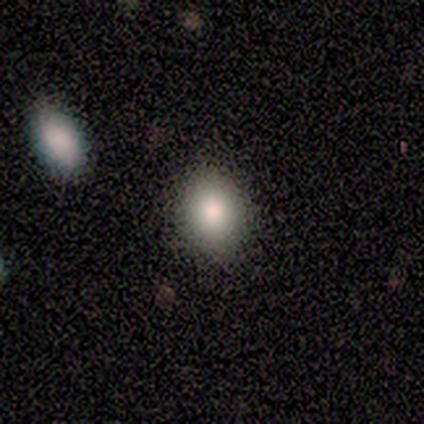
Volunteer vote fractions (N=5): A smooth galaxy with no disk features (80%) that is in between round and cigar-shaped (75%).

Vote fractions:
- Smooth or featured? smooth: 80% / featured or disk: 20% / star or artifact: 0%
- How rounded? in between: 75% / round: 25% / cigar-shaped: 0%
- Merging? none: 60% / minor disturbance: 40% / major disturbance: 0% / merger: 0%